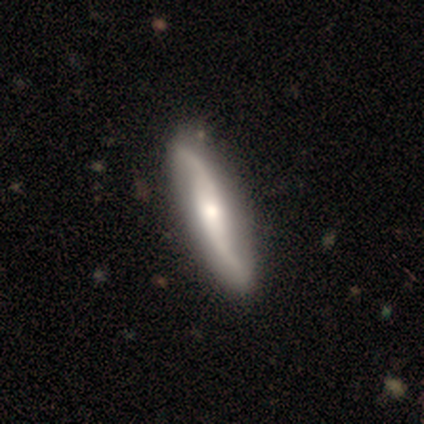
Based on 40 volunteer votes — This is likely a featured or disk galaxy (72%). It is likely not viewed edge-on (69%). Bar: possibly strong (45%, tied with no). Spiral arm pattern: clearly yes (100%). Spiral arm count: clearly 2 (100%). Spiral winding: clearly loose (85%). Central bulge: possibly moderate (45%). Merging: possibly none (55%).